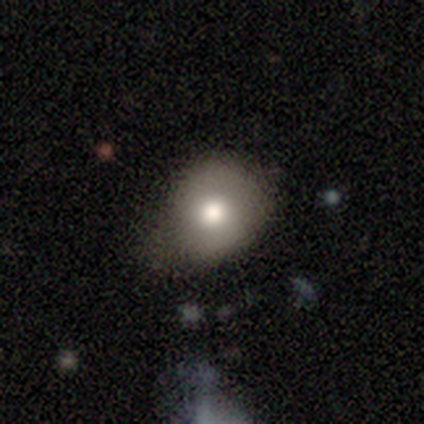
Volunteers were most divided on "merging": none: 55%, minor disturbance: 42%, major disturbance: 3%, merger: 0%. More confident: smooth or featured — smooth (75%); how rounded — round (70%).